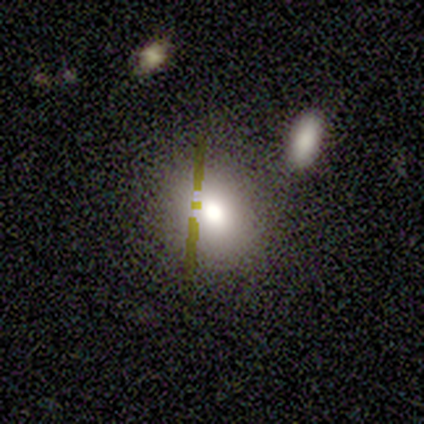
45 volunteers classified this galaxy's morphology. smooth_or_featured: smooth (p=0.60) [alt: star or artifact p=0.22]
how_rounded: round (p=0.56) [alt: in between p=0.41]
merging: none (p=0.86) [alt: merger p=0.09]